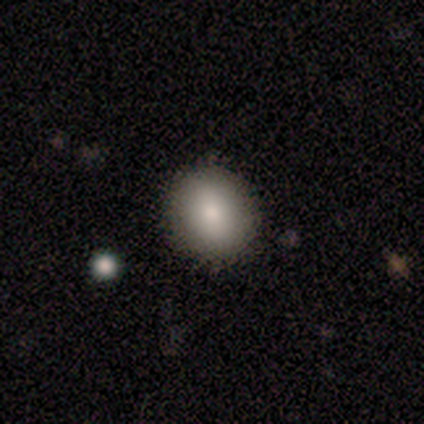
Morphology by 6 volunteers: smooth_or_featured: smooth (p=0.83) [alt: featured or disk p=0.17]
how_rounded: round (p=1.00)
merging: none (p=0.83) [alt: minor disturbance p=0.17]